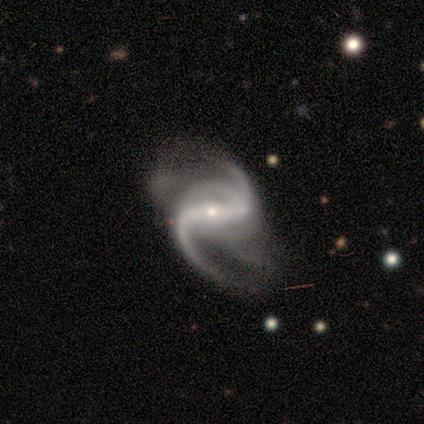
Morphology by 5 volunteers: smooth_or_featured: featured or disk (p=1.00)
disk_edge_on: no (p=1.00)
bar: strong (p=1.00)
has_spiral_arms: yes (p=1.00)
spiral_winding: loose (p=0.60) [alt: medium p=0.40]
spiral_arm_count: 2 (p=0.60) [alt: 3 p=0.20]
bulge_size: moderate (p=0.60) [alt: small p=0.40]
merging: none (p=0.80) [alt: major disturbance p=0.20]